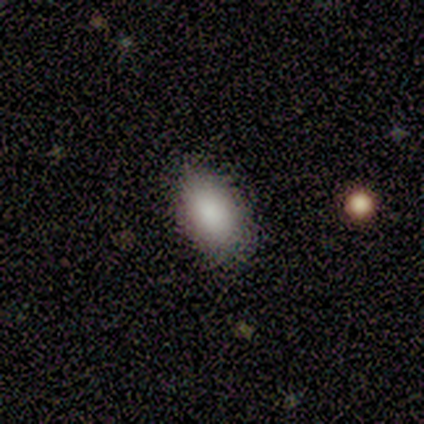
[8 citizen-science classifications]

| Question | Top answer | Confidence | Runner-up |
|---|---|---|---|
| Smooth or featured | smooth | 75% | featured or disk (12%) |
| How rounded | in between | 100% | — |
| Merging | none | 86% | minor disturbance (14%) |